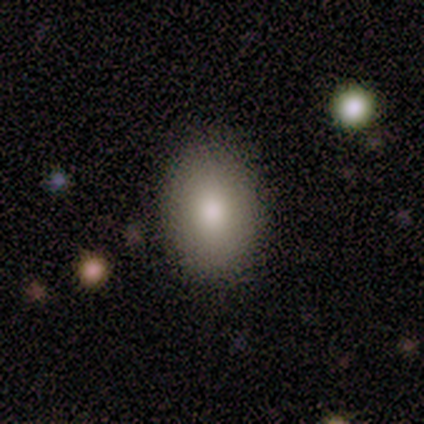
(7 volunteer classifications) This is clearly a smooth galaxy (86%). How rounded: clearly in between (83%). Merging: possibly none (57%).